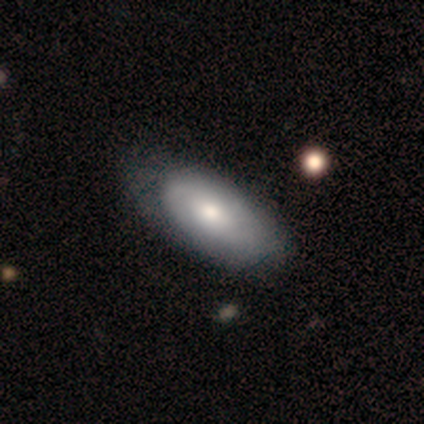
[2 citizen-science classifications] A smooth galaxy with no disk features (100%) that is in between round and cigar-shaped (100%). Merging: none (50%, tied with minor disturbance).